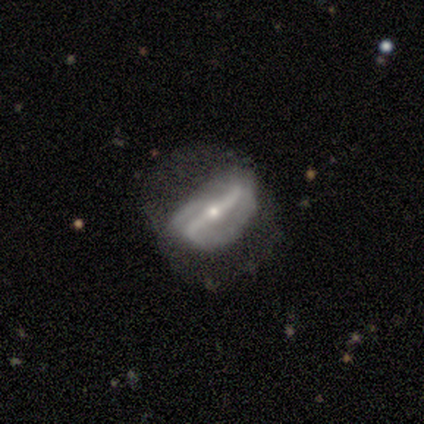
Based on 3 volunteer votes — Morphology: type=featured or disk (67%); edge-on=no (100%); bar=strong (50%, tied with no); spiral arms=yes (50%, tied with no); winding=tight (100%); arm count=2 (100%); bulge=small (100%); merging=none (67%).